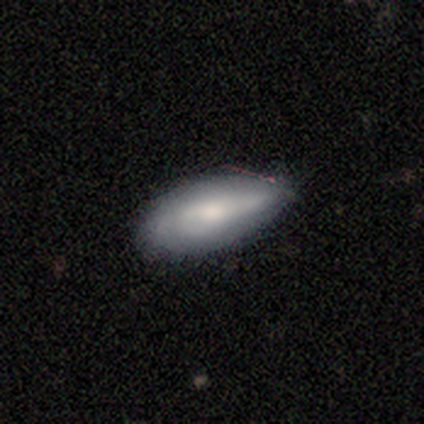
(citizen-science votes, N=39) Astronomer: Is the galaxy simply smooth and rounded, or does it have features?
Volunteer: smooth — 62%.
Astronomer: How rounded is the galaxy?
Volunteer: in between — 88%.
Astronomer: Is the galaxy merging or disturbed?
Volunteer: none — 53% (runner-up: minor disturbance, 38%).